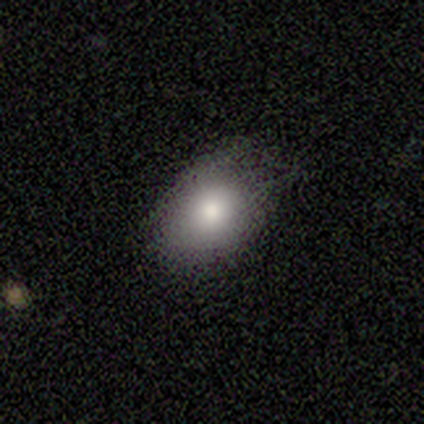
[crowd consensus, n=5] smooth-or-featured: smooth: 100% | featured or disk: 0% | star or artifact: 0%
  how-rounded: in between: 80% | round: 20% | cigar-shaped: 0%
  merging: none: 60% | minor disturbance: 40% | major disturbance: 0% | merger: 0%